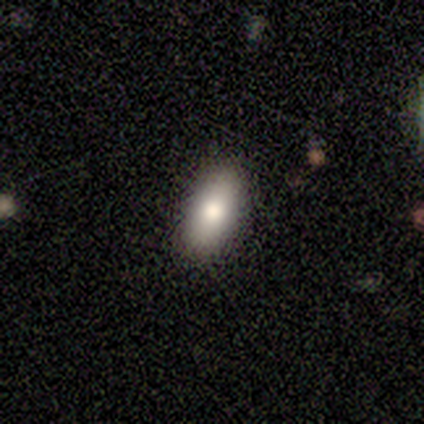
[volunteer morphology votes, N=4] This is clearly a smooth galaxy (100%). How rounded: clearly in between (100%). Merging: likely none (75%).